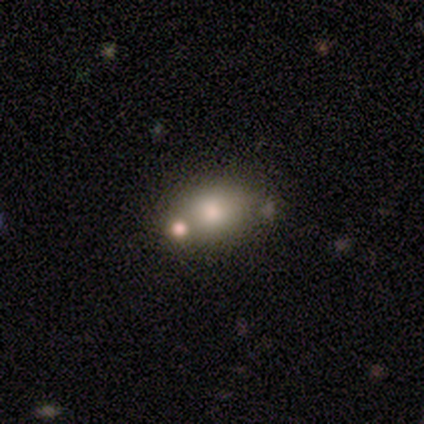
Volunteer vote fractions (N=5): smooth_or_featured: smooth (p=0.80) [alt: featured or disk p=0.20]
how_rounded: in between (p=0.75) [alt: round p=0.25]
merging: none (p=0.60) [alt: minor disturbance p=0.20]